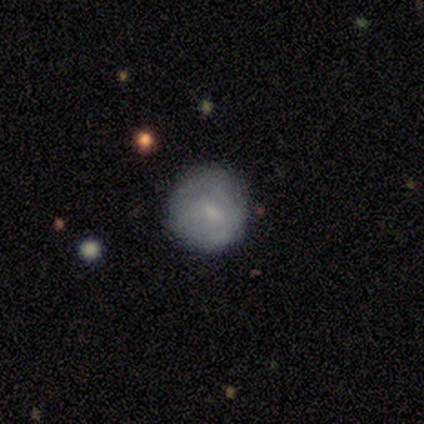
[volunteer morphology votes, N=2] type=smooth (100%); roundness=round (100%); merging=minor disturbance (100%).